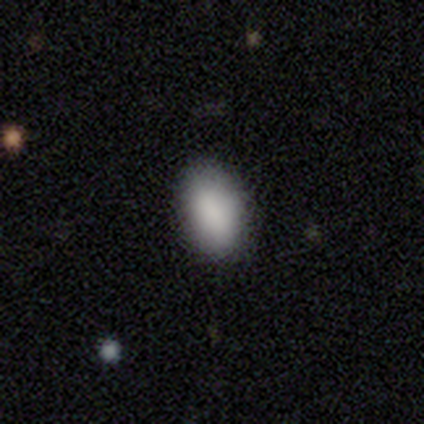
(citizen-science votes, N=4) smooth 100%, featured or disk 0%, star or artifact 0%. Down the decision tree: how rounded — in between (100%); merging — none (100%).